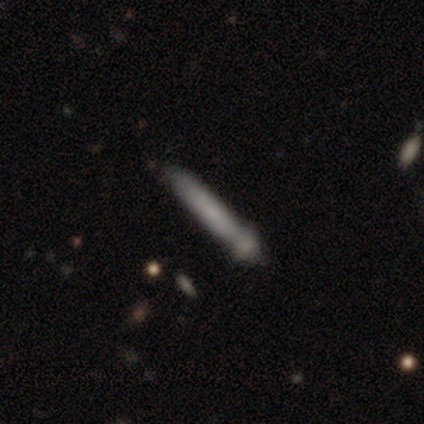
Smooth or featured: smooth — 100%
How rounded: cigar-shaped — 75% (in between — 25%)
Merging: none — 25% (tied with minor disturbance — 25%; major disturbance — 25%; merger — 25%)